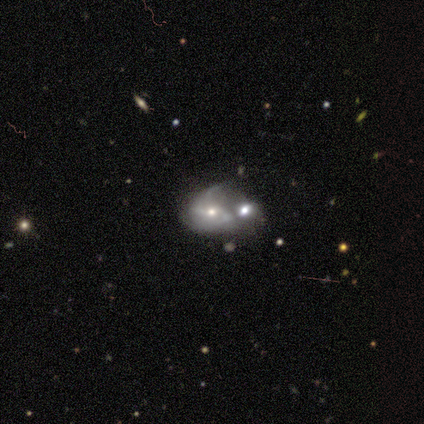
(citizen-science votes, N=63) Overall: featured or disk (75%). Edge-on disk: no (98%). Bar: no (63%; weak 26%). Spiral arms: yes (78%). Spiral arm count: 2 (64%). Spiral winding: medium (42%; loose 39%). Bulge size: moderate (54%; small 33%). Merging: merger (67%).